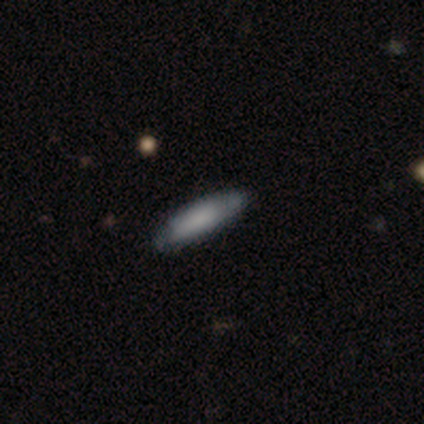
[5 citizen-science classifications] A smooth galaxy with no disk features (80%) that is in between round and cigar-shaped (50%, tied with cigar-shaped).

Vote fractions:
- Smooth or featured? smooth: 80% / featured or disk: 20% / star or artifact: 0%
- How rounded? in between: 50% (tied) / cigar-shaped: 50% (tied) / round: 0%
- Merging? none: 60% / minor disturbance: 40% / major disturbance: 0% / merger: 0%